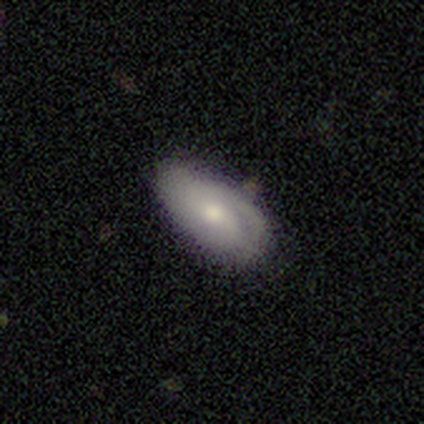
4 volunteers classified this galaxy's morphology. Volunteers were most divided on "bulge size": moderate: 50%, large: 25%, small: 25%, dominant: 0%, none: 0%. More confident: smooth or featured — featured or disk (100%); edge-on disk — no (100%); spiral arm count — 2 (100%); bar — weak (75%); spiral arms — yes (75%); spiral winding — tight (67%); merging — none (50%).